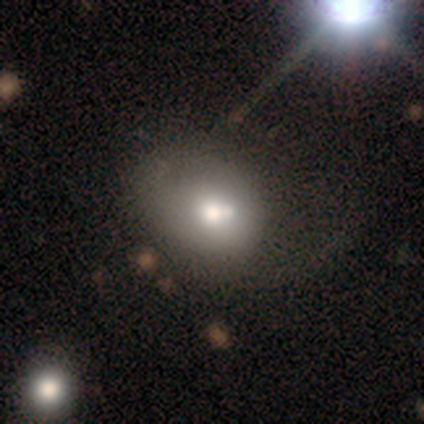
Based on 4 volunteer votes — smooth-or-featured: smooth: 75% | featured or disk: 25% | star or artifact: 0%
  how-rounded: round: 67% | in between: 33% | cigar-shaped: 0%
  merging: major disturbance: 50% | none: 25% | merger: 25% | minor disturbance: 0%